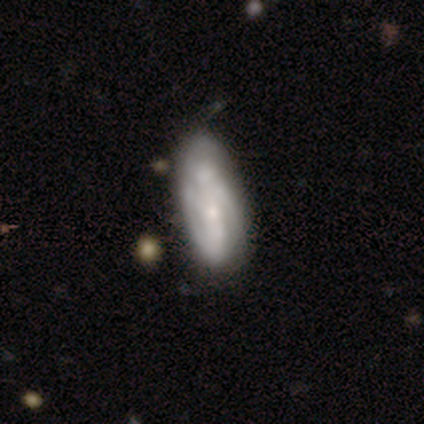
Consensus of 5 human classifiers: Smooth or featured: featured or disk — 60% (smooth — 40%)
Edge-on disk: no — 100%
Bar: no — 67% (weak — 33%)
Spiral arms: yes — 100%
Spiral winding: tight — 67% (loose — 33%)
Spiral arm count: can't tell — 67% (3 — 33%)
Bulge size: small — 67% (none — 33%)
Merging: none — 40% (tied with minor disturbance — 40%)